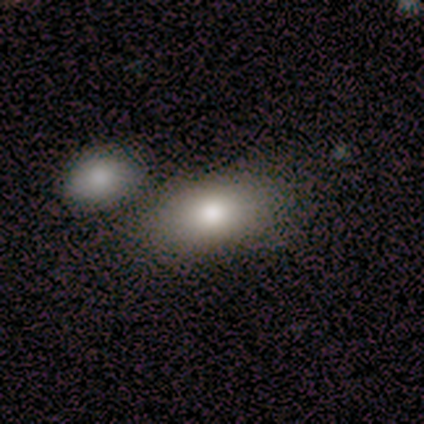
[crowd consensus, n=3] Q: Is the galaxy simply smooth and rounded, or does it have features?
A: smooth — 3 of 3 (100%).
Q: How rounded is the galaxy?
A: in between — 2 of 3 (67%).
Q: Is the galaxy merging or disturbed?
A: none — 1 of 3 (33%, tied with minor disturbance and merger).